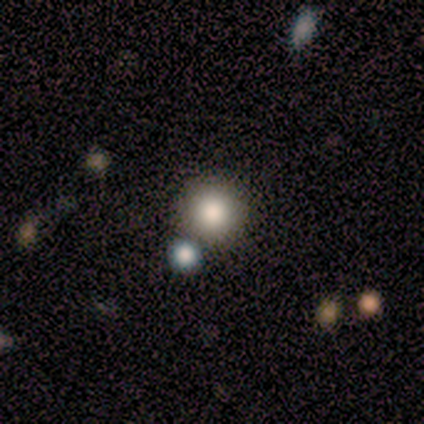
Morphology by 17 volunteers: Smooth or featured? 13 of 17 (76%) said smooth. How rounded? 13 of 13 (100%) said round. Merging? 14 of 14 (100%) said none.